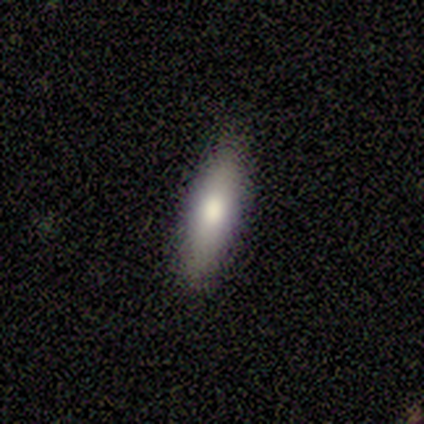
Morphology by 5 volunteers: A smooth galaxy with no disk features (80%) that is cigar-shaped (75%).

Vote fractions:
- Smooth or featured? smooth: 80% / featured or disk: 20% / star or artifact: 0%
- How rounded? cigar-shaped: 75% / in between: 25% / round: 0%
- Merging? none: 100% / minor disturbance: 0% / major disturbance: 0% / merger: 0%